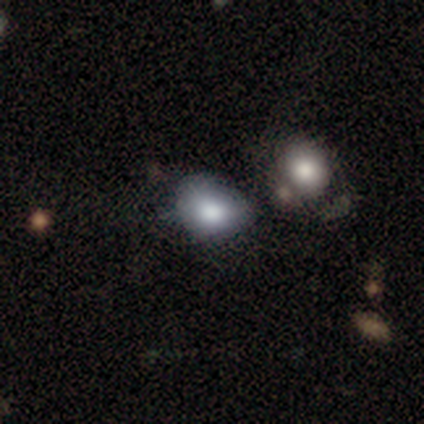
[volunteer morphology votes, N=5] This is clearly a smooth galaxy (80%). How rounded: possibly round (50%, tied with in between). Merging: possibly minor disturbance (50%).